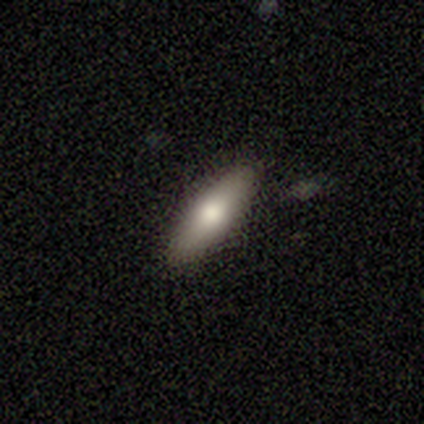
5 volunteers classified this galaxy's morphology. This is likely a smooth galaxy (60%). How rounded: likely cigar-shaped (67%). Merging: clearly none (100%).